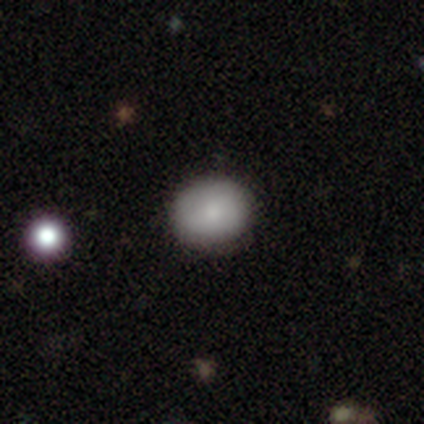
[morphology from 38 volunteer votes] Smooth or featured? 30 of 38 (79%) said smooth. How rounded? 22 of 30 (73%) said round. Merging? 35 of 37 (95%) said none.